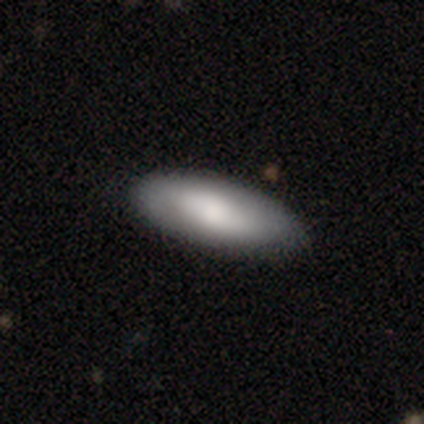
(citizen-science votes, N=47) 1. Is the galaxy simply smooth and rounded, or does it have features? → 74% smooth, 23% featured or disk, 2% star or artifact.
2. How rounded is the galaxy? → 77% in between, 23% cigar-shaped, 0% round.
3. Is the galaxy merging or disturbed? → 85% none, 9% minor disturbance, 4% major disturbance, 2% merger.